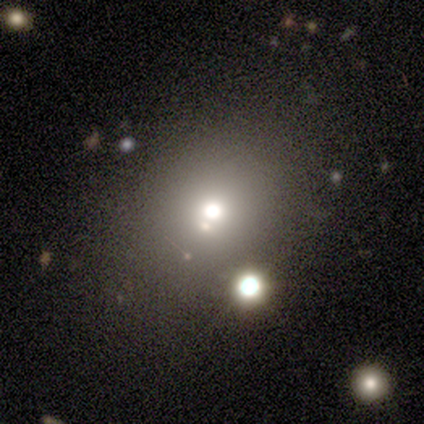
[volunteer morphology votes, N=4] Smooth or featured: smooth — 75% (star or artifact — 25%)
How rounded: in between — 67% (round — 33%)
Merging: merger — 67% (none — 33%)